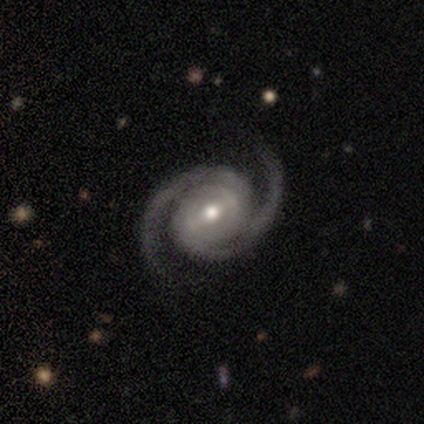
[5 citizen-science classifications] smooth-or-featured: featured or disk: 100% | smooth: 0% | star or artifact: 0%
  disk-edge-on: no: 100% | yes: 0%
    bar: strong: 40% (tied) | no: 40% (tied) | weak: 20%
    has-spiral-arms: yes: 100% | no: 0%
      spiral-winding: tight: 60% | medium: 40% | loose: 0%
      spiral-arm-count: 2: 100% | 1: 0% | 3: 0% | 4: 0% | more than 4: 0% | can't tell: 0%
    bulge-size: moderate: 100% | dominant: 0% | large: 0% | small: 0% | none: 0%
  merging: none: 80% | minor disturbance: 20% | major disturbance: 0% | merger: 0%